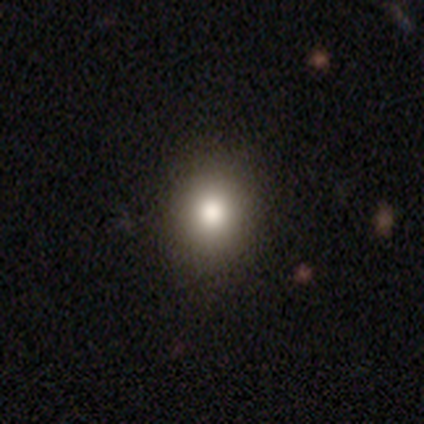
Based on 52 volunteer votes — smooth-or-featured: smooth: 73% | star or artifact: 19% | featured or disk: 8%
  how-rounded: round: 76% | in between: 24% | cigar-shaped: 0%
  merging: none: 95% | minor disturbance: 5% | major disturbance: 0% | merger: 0%